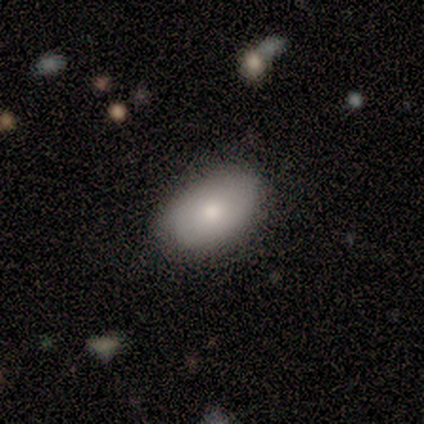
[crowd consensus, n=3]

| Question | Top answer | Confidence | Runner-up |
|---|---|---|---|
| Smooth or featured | smooth | 100% | — |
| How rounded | in between | 100% | — |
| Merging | none | 100% | — |